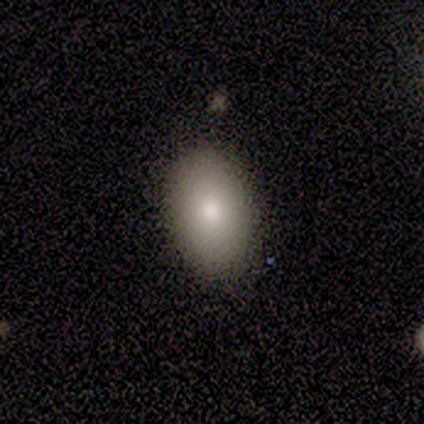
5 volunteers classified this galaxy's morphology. smooth_or_featured: smooth (p=0.80) [alt: featured or disk p=0.20]
how_rounded: in between (p=1.00)
merging: none (p=1.00)